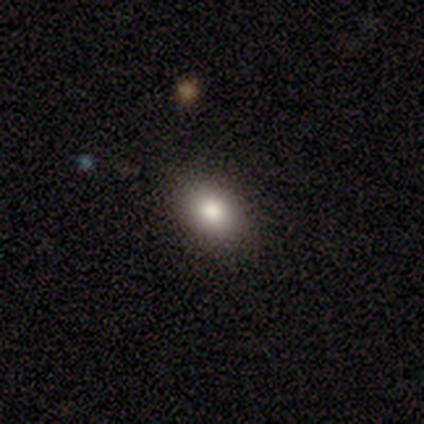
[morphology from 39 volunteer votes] smooth_or_featured: smooth (p=0.74) [alt: star or artifact p=0.15]
how_rounded: in between (p=0.86) [alt: round p=0.14]
merging: none (p=0.91) [alt: minor disturbance p=0.09]